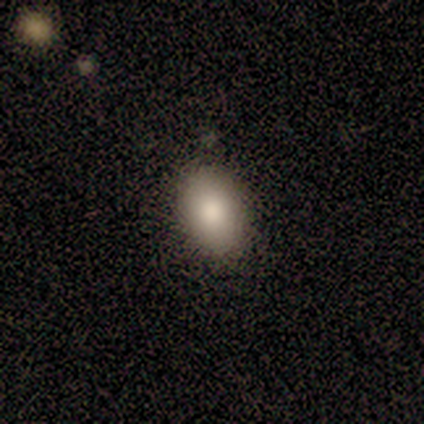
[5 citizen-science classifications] Q: Smooth or featured?
A: smooth (100%)
Q: How rounded?
A: in between (80%); runner-up: round (20%)
Q: Merging?
A: none (80%); runner-up: minor disturbance (20%)